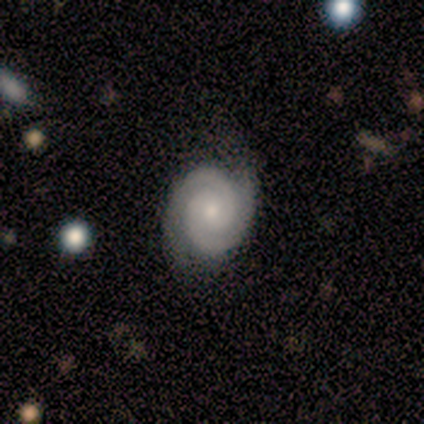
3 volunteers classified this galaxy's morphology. featured or disk 100%, smooth 0%, star or artifact 0%. Down the decision tree: edge-on disk — no (100%); bar — no (100%); spiral arms — yes (100%); spiral arm count — 2 (100%); spiral winding — tight (100%); bulge size — small (67%); merging — none (100%).